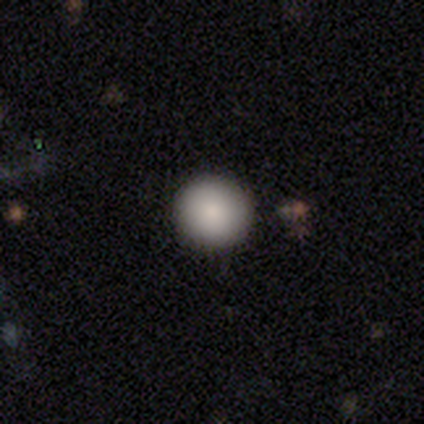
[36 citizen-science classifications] A smooth galaxy with no disk features (97%) that is round (97%).

Vote fractions:
- Smooth or featured? smooth: 97% / star or artifact: 3% / featured or disk: 0%
- How rounded? round: 97% / in between: 3% / cigar-shaped: 0%
- Merging? none: 94% / major disturbance: 3% / merger: 3% / minor disturbance: 0%